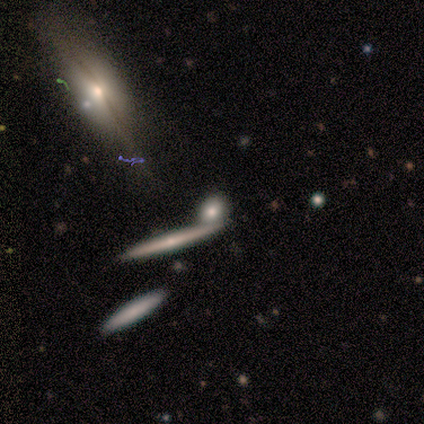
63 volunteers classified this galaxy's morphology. smooth-or-featured: featured or disk: 48% | smooth: 44% | star or artifact: 8%
  disk-edge-on: yes: 70% | no: 30%
    edge-on-bulge: rounded: 67% | none: 29% | boxy: 5%
  merging: none: 76% | merger: 19% | minor disturbance: 5% | major disturbance: 0%